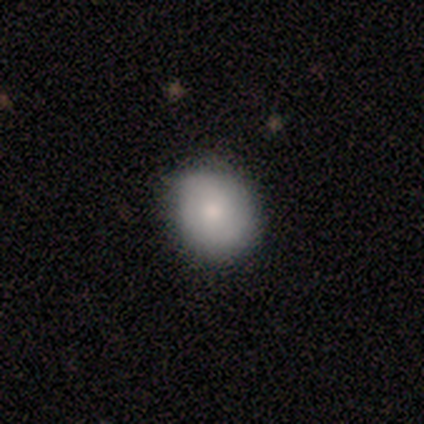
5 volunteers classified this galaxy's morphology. Smooth or featured: smooth — 60% (star or artifact — 40%)
How rounded: round — 100%
Merging: none — 100%